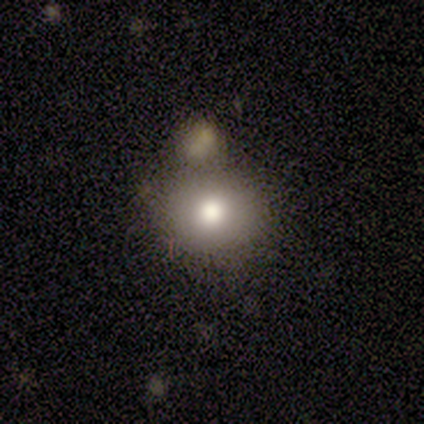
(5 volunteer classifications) Smooth or featured?
  - smooth: 80% *
  - star or artifact: 20%
  - featured or disk: 0%
How rounded?
  - round: 75% *
  - in between: 25%
  - cigar-shaped: 0%
Merging?
  - none: 100% *
  - minor disturbance: 0%
  - major disturbance: 0%
  - merger: 0%